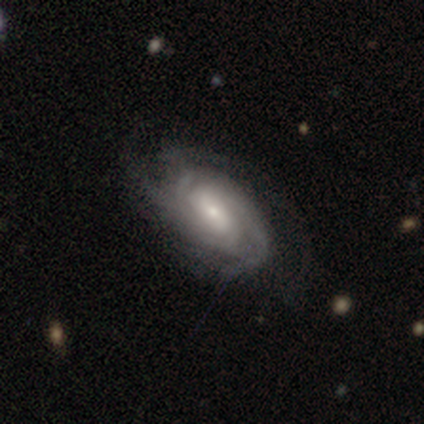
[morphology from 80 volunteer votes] Volunteers were most divided on "bar" (2-way tie): weak: 43%, no: 43%, strong: 14%. Remaining: edge-on disk — no (99%); spiral arms — yes (93%); smooth or featured — featured or disk (89%); spiral winding — tight (68%); bulge size — small (63%); spiral arm count — can't tell (52%); merging — none (41%).